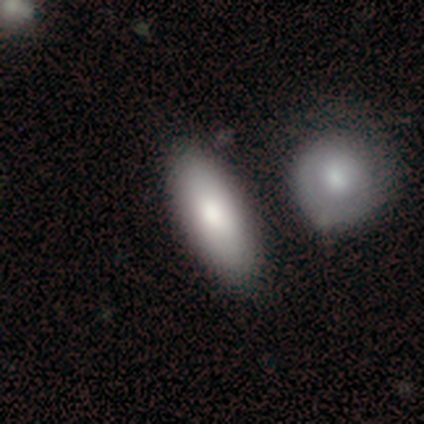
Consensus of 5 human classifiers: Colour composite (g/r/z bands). It shows a smooth galaxy with no disk features (60%) that is in between round and cigar-shaped (67%). Merging: merger (60%).